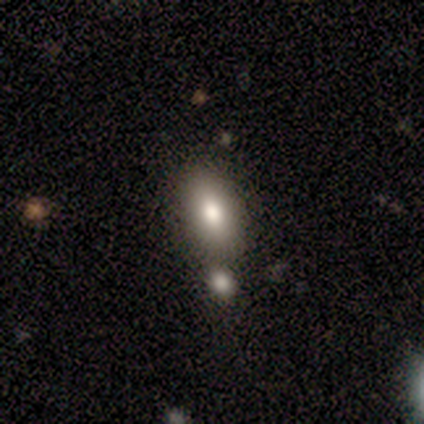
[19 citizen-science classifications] Smooth or featured: smooth — 79% (featured or disk — 16%)
How rounded: in between — 87% (cigar-shaped — 13%)
Merging: none — 61% (merger — 39%)